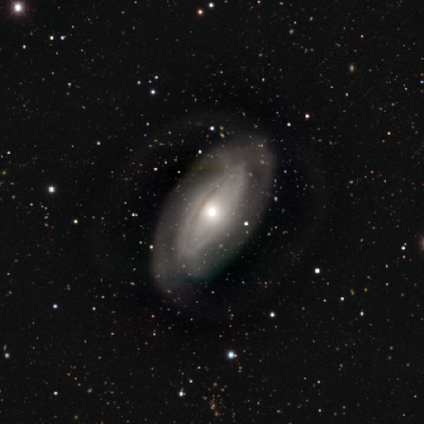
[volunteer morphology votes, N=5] smooth_or_featured: featured or disk (p=0.80) [alt: smooth p=0.20]
disk_edge_on: no (p=0.75) [alt: yes p=0.25]
bar: no (p=0.67) [alt: weak p=0.33]
has_spiral_arms: yes (p=0.67) [alt: no p=0.33]
spiral_winding: tight (p=1.00)
spiral_arm_count: can't tell (p=1.00)
bulge_size: moderate (p=0.67) [alt: small p=0.33]
merging: none (p=0.60) [alt: minor disturbance p=0.20]